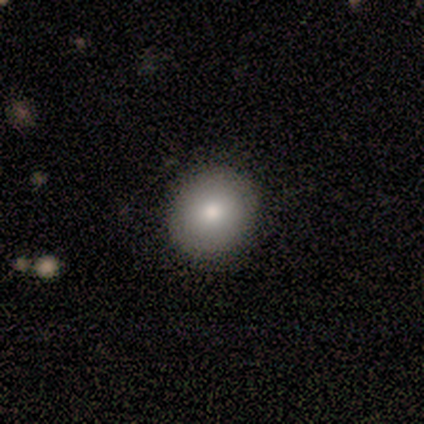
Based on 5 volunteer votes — A smooth galaxy with no disk features (80%) that is round (100%). Merging: none (100%).